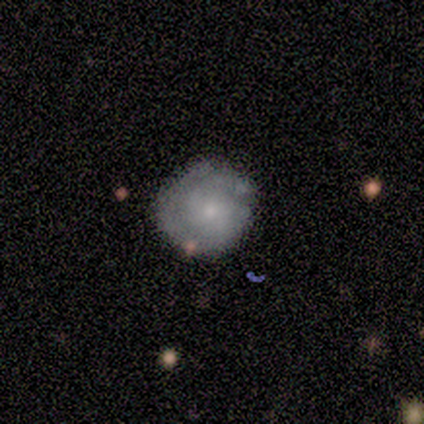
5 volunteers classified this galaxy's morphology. A featured or disk galaxy (80%) with a weak bar (50%, tied with no), 1 (67%) tight (67%) spiral arms (75%) and a moderate central bulge (50%).

Vote fractions:
- Smooth or featured? featured or disk: 80% / smooth: 20% / star or artifact: 0%
- Edge-on disk? no: 100% / yes: 0%
- Bar? weak: 50% (tied) / no: 50% (tied) / strong: 0%
- Spiral arms? yes: 75% / no: 25%
- Spiral winding? tight: 67% / medium: 33% / loose: 0%
- Spiral arm count? 1: 67% / 2: 33% / 3: 0% / 4: 0% / more than 4: 0% / can't tell: 0%
- Bulge size? moderate: 50% / small: 25% / none: 25% / dominant: 0% / large: 0%
- Merging? none: 100% / minor disturbance: 0% / major disturbance: 0% / merger: 0%